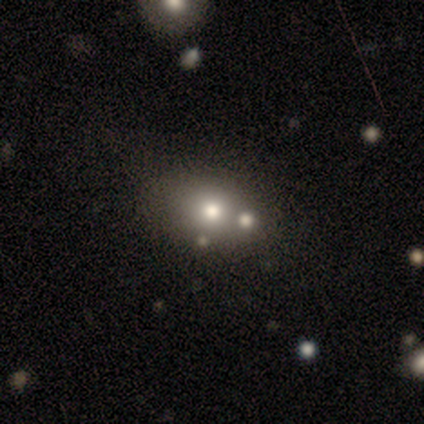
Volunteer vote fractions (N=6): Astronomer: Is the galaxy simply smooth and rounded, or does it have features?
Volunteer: smooth — 83%.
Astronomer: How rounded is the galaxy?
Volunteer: in between — 60% (runner-up: round, 40%).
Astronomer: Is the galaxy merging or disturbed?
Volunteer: merger — 67%.